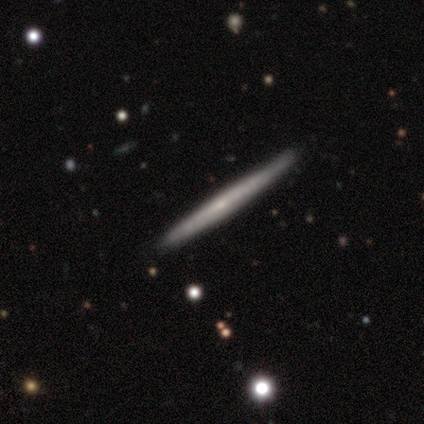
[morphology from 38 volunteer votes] Volunteers were most divided on "smooth or featured": featured or disk: 63%, smooth: 34%, star or artifact: 3%. More confident: edge-on disk — yes (96%); merging — none (81%); edge-on bulge — none (78%).